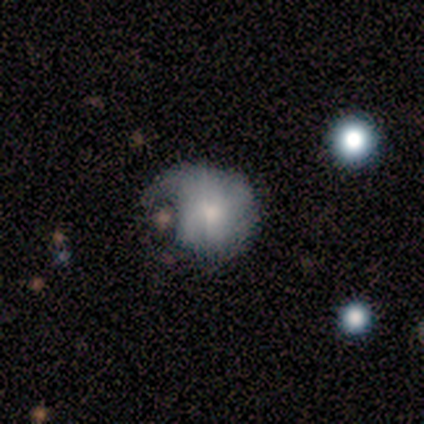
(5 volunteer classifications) Q: Smooth or featured?
A: smooth (40%); tied with: featured or disk (40%)
Q: How rounded?
A: round (100%)
Q: Merging?
A: major disturbance (75%); runner-up: none (25%)